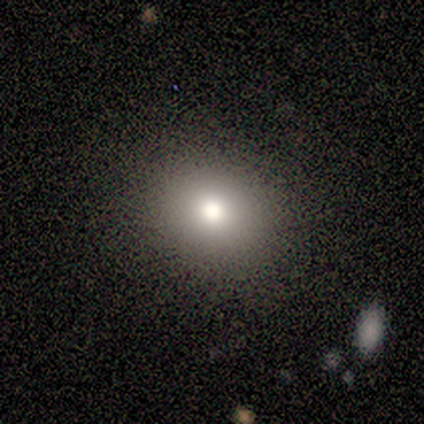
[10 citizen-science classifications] Smooth or featured? smooth (80%)
How rounded? round (88%)
Merging? none (75%)